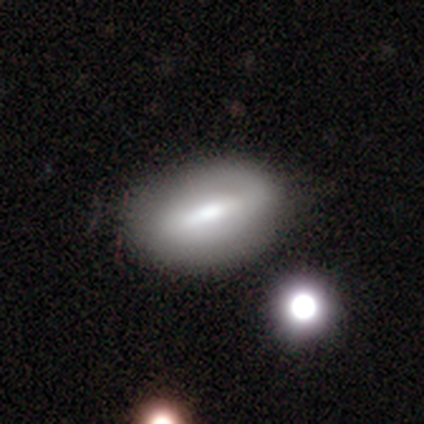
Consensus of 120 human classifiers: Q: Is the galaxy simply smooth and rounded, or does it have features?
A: smooth — 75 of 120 (62%).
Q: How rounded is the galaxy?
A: in between — 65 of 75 (87%).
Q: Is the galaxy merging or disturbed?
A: none — 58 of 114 (51%).